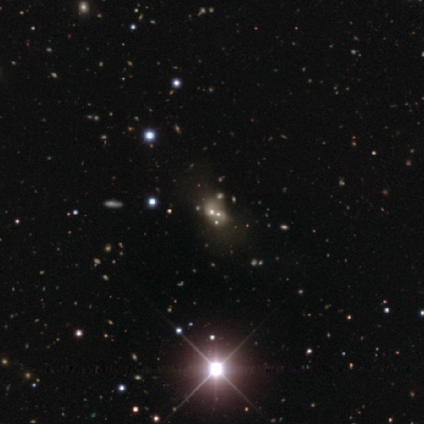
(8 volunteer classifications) A star or artifact, not a galaxy (75%).

Vote fractions:
- Smooth or featured? star or artifact: 75% / smooth: 12% / featured or disk: 12%